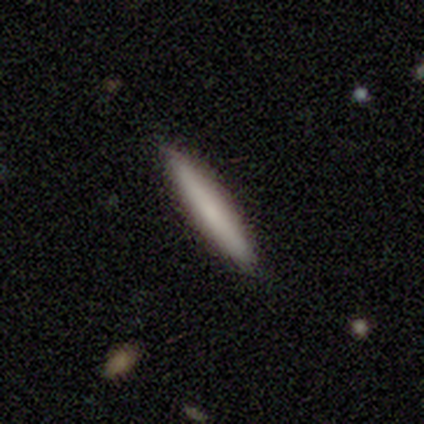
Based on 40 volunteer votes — smooth-or-featured: smooth: 70% | featured or disk: 25% | star or artifact: 5%
  how-rounded: cigar-shaped: 96% | in between: 4% | round: 0%
  merging: none: 82% | minor disturbance: 16% | merger: 3% | major disturbance: 0%